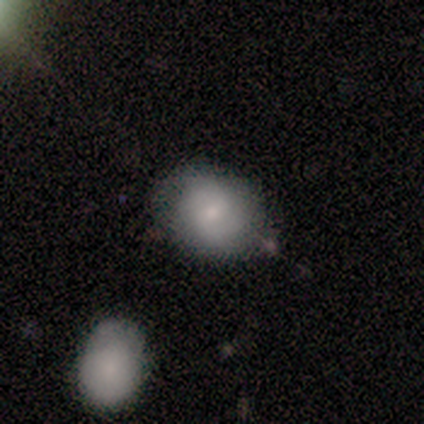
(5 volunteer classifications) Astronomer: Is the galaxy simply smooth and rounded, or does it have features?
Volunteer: smooth — 80%.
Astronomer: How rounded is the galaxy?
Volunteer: in between — 75%.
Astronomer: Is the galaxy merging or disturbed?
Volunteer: minor disturbance — 60%.